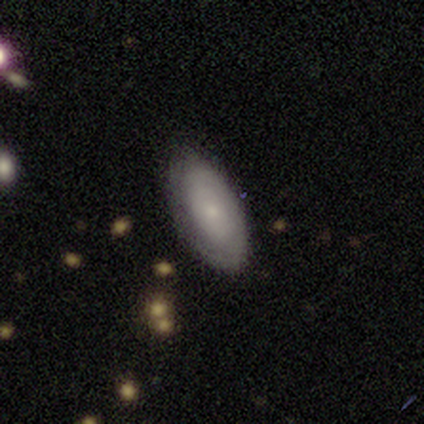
Morphology: type=smooth (100%); roundness=in between (100%); merging=none (80%).